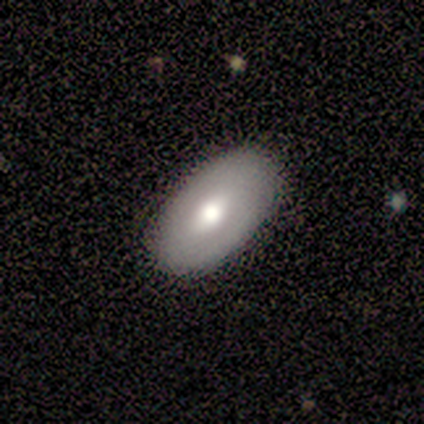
Smooth or featured?
  - smooth: 50% * (tied)
  - featured or disk: 50% * (tied)
  - star or artifact: 0%
How rounded?
  - in between: 100% *
  - round: 0%
  - cigar-shaped: 0%
Merging?
  - none: 100% *
  - minor disturbance: 0%
  - major disturbance: 0%
  - merger: 0%